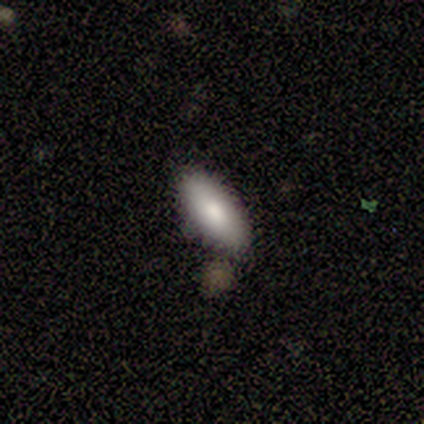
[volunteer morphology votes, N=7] This appears to be a smooth galaxy with no disk features (71%) that is in between round and cigar-shaped (80%). Merging: none (86%).